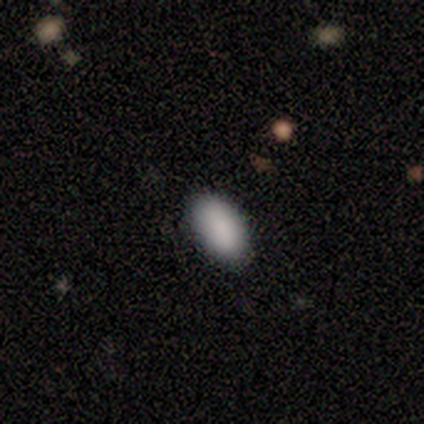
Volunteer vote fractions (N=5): Q: Smooth or featured?
A: smooth (100%)
Q: How rounded?
A: in between (100%)
Q: Merging?
A: none (80%); runner-up: minor disturbance (20%)